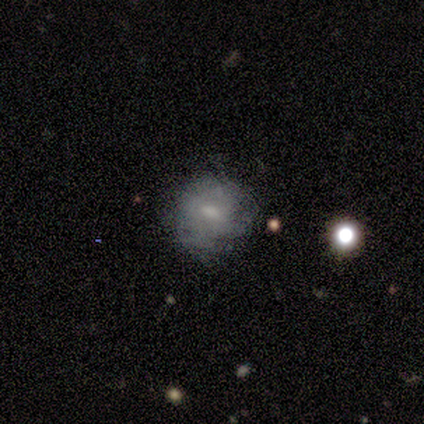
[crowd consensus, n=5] smooth 80%, featured or disk 20%, star or artifact 0%. Down the decision tree: how rounded — round (100%); merging — none (80%).